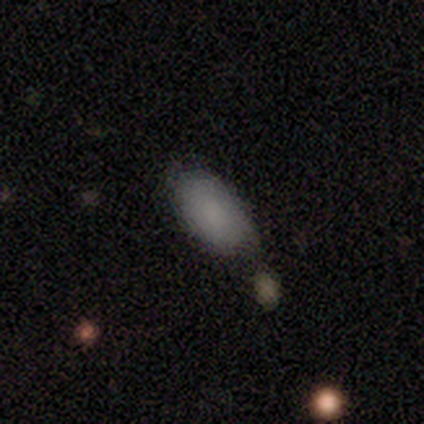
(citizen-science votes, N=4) Smooth or featured: smooth — 75% (featured or disk — 25%)
How rounded: in between — 67% (round — 33%)
Merging: none — 75% (merger — 25%)